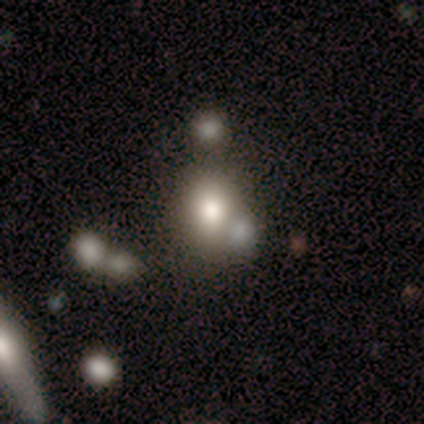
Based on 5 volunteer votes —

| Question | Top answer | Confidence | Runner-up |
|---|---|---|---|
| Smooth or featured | smooth | 60% | featured or disk (20%) |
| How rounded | round | 67% | in between (33%) |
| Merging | none | 50% | minor disturbance (25%) |